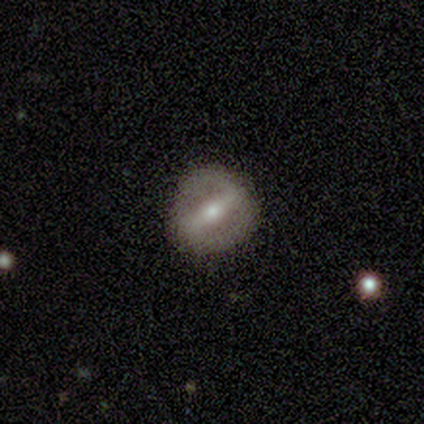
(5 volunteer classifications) smooth-or-featured: featured or disk: 80% | star or artifact: 20% | smooth: 0%
  disk-edge-on: no: 100% | yes: 0%
    bar: strong: 75% | weak: 25% | no: 0%
    has-spiral-arms: no: 75% | yes: 25%
    bulge-size: small: 75% | moderate: 25% | dominant: 0% | large: 0% | none: 0%
  merging: none: 100% | minor disturbance: 0% | major disturbance: 0% | merger: 0%